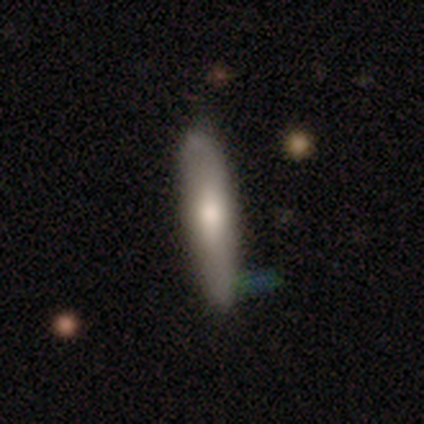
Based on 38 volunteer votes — Smooth or featured? smooth (45%, tied with featured or disk)
How rounded? cigar-shaped (65%)
Merging? none (68%)